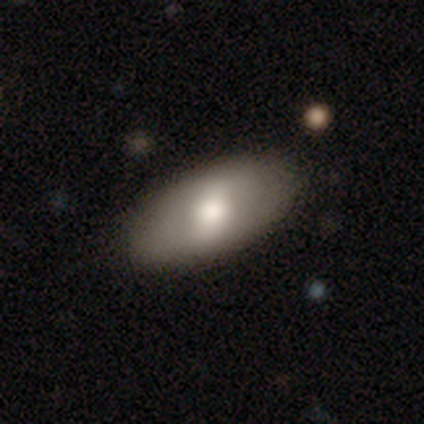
smooth_or_featured: smooth (p=0.72) [alt: featured or disk p=0.20]
how_rounded: in between (p=0.91) [alt: round p=0.06]
merging: none (p=0.79) [alt: minor disturbance p=0.17]